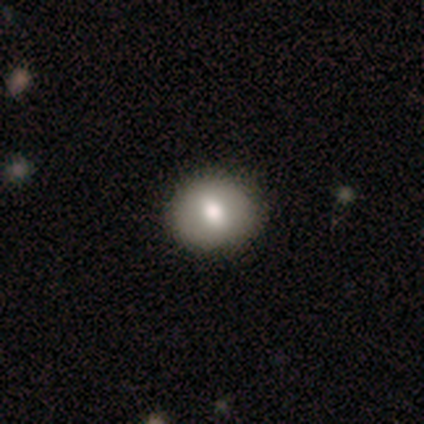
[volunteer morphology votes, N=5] smooth 60%, featured or disk 40%, star or artifact 0%. Down the decision tree: how rounded — round (67%); merging — none (60%).